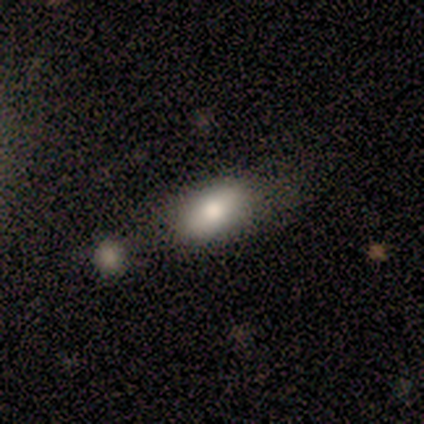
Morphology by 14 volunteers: Smooth or featured? smooth (79%)
How rounded? in between (82%)
Merging? none (64%)